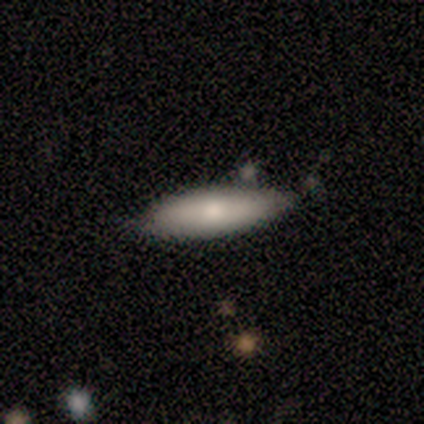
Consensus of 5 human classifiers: smooth_or_featured: smooth (p=0.60) [alt: featured or disk p=0.40]
how_rounded: in between (p=0.67) [alt: cigar-shaped p=0.33]
merging: none (p=0.60) [alt: minor disturbance p=0.40]